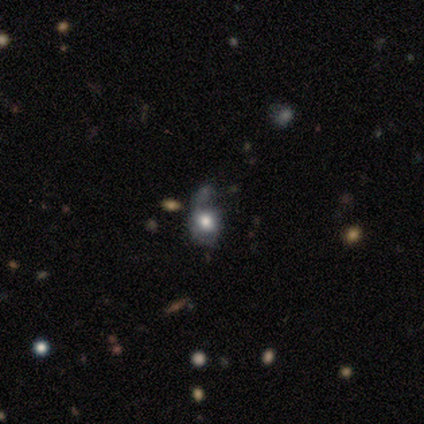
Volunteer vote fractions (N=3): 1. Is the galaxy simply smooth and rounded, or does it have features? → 67% featured or disk, 33% smooth, 0% star or artifact.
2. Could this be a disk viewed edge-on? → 100% no, 0% yes.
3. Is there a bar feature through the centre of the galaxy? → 100% no, 0% strong, 0% weak.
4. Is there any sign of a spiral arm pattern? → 100% no, 0% yes.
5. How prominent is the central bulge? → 100% large, 0% dominant, 0% moderate, 0% small, 0% none.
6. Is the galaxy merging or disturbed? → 33% none (tied), 33% major disturbance (tied), 33% merger (tied), 0% minor disturbance.